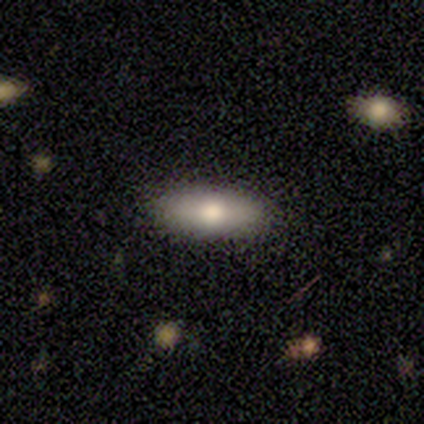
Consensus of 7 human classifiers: smooth 57%, featured or disk 29%, star or artifact 14%. Down the decision tree: how rounded — in between (100%); merging — none (83%).